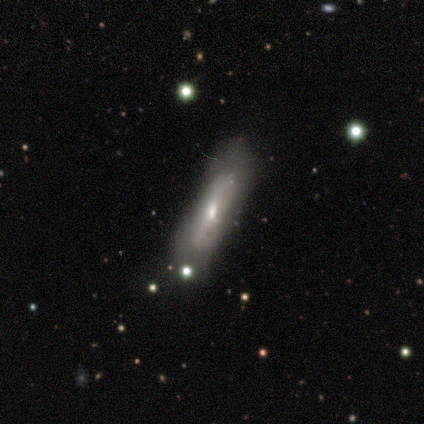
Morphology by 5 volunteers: Smooth or featured?
  - featured or disk: 80% *
  - smooth: 20%
  - star or artifact: 0%
Edge-on disk?
  - yes: 50% * (tied)
  - no: 50% * (tied)
Edge-on bulge?
  - rounded: 100% *
  - boxy: 0%
  - none: 0%
Merging?
  - none: 80% *
  - minor disturbance: 20%
  - major disturbance: 0%
  - merger: 0%